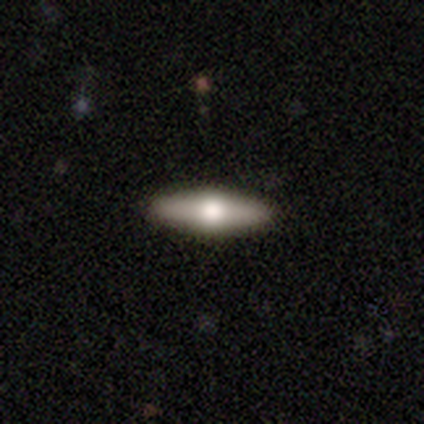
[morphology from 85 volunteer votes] type=smooth (49%); roundness=cigar-shaped (71%); merging=none (92%).